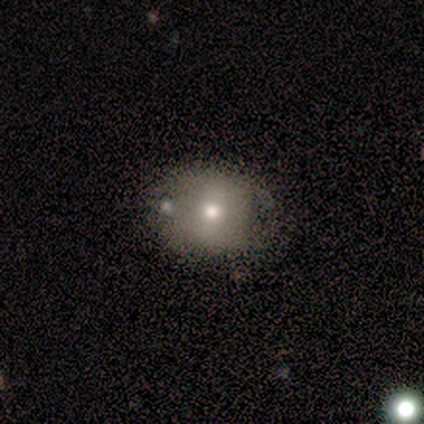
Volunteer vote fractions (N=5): This is clearly a featured or disk galaxy (80%). It is clearly not viewed edge-on (100%). Bar: possibly no (50%). Spiral arm pattern: possibly yes (50%, tied with no). Spiral arm count: possibly 2 (50%, tied with can't tell). Spiral winding: possibly tight (50%, tied with medium). Central bulge: clearly moderate (100%). Merging: likely none (60%).